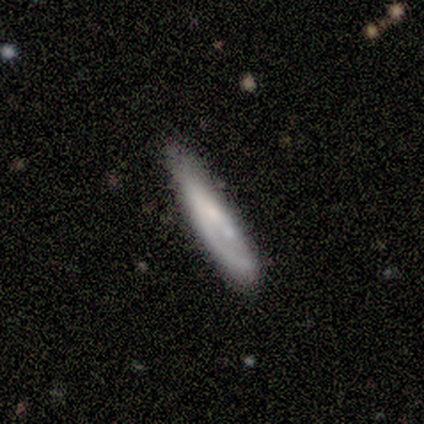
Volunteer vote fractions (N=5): smooth_or_featured: smooth (p=0.60) [alt: featured or disk p=0.40]
how_rounded: in between (p=0.67) [alt: cigar-shaped p=0.33]
merging: none (p=0.80) [alt: major disturbance p=0.20]